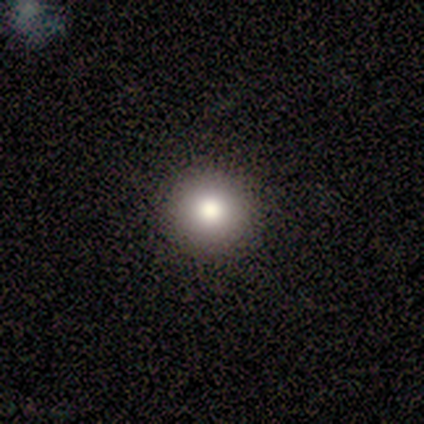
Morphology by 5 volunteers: Smooth or featured?
  - smooth: 100% *
  - featured or disk: 0%
  - star or artifact: 0%
How rounded?
  - round: 100% *
  - in between: 0%
  - cigar-shaped: 0%
Merging?
  - none: 100% *
  - minor disturbance: 0%
  - major disturbance: 0%
  - merger: 0%